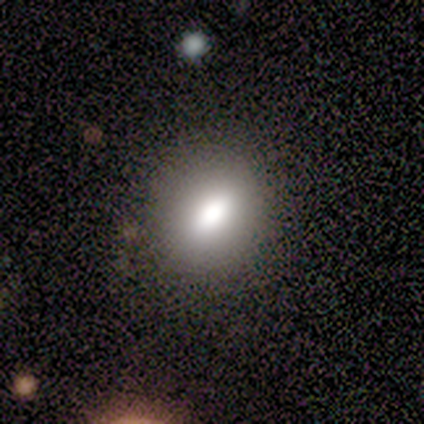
Overall: smooth (72%). How rounded: round (50%; in between 46%). Merging: none (80%).